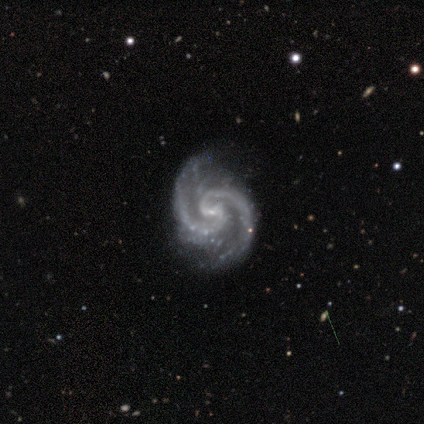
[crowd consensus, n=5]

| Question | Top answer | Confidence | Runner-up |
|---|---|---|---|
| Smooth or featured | featured or disk | 100% | — |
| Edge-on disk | no | 100% | — |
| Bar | weak | 40% | tied: no (40%) |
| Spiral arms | yes | 100% | — |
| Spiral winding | tight | 60% | medium (40%) |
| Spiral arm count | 2 | 80% | 3 (20%) |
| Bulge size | small | 100% | — |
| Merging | none | 80% | minor disturbance (20%) |